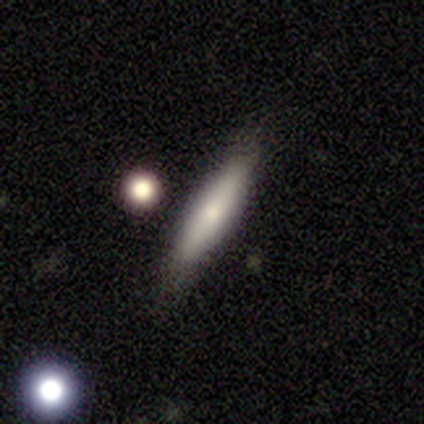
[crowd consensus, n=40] smooth 68%, featured or disk 28%, star or artifact 5%. Down the decision tree: how rounded — cigar-shaped (85%); merging — none (79%).